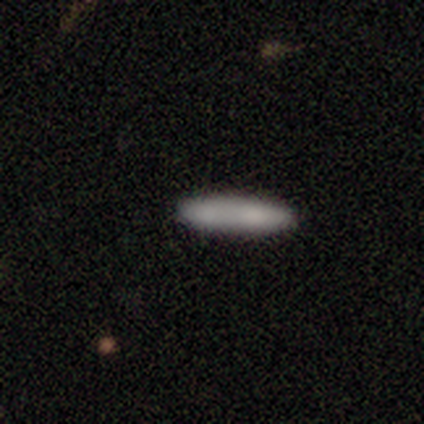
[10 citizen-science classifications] A smooth galaxy with no disk features (90%) that is cigar-shaped (100%). Merging: none (100%).